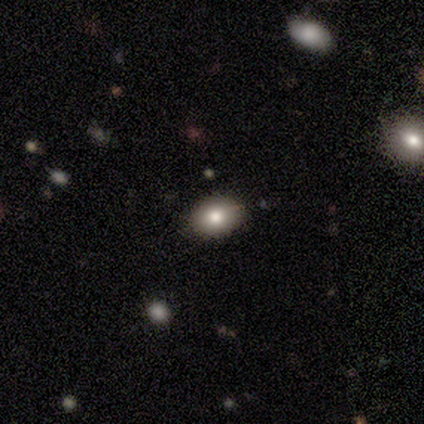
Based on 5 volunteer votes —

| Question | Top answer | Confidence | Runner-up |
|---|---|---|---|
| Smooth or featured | smooth | 80% | featured or disk (20%) |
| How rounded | round | 50% | tied: in between (50%) |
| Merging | none | 80% | minor disturbance (20%) |